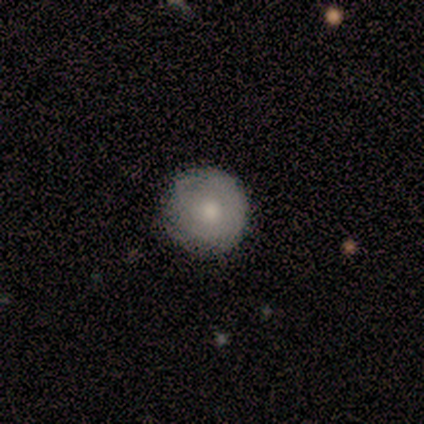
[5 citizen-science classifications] smooth-or-featured: smooth: 80% | featured or disk: 20% | star or artifact: 0%
  how-rounded: round: 100% | in between: 0% | cigar-shaped: 0%
  merging: none: 60% | minor disturbance: 40% | major disturbance: 0% | merger: 0%